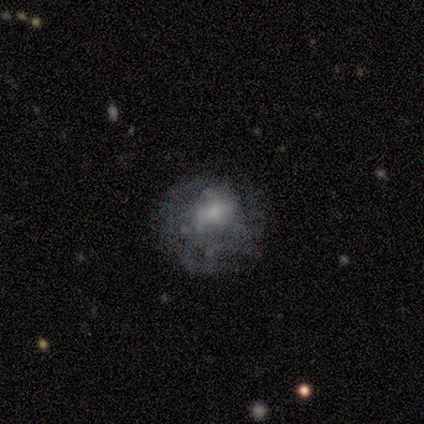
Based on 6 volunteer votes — This is possibly a featured or disk galaxy (50%). It is clearly not viewed edge-on (100%). Bar: clearly no (100%). Spiral arm pattern: clearly no (100%). Central bulge: clearly small (100%). Merging: likely none (75%).